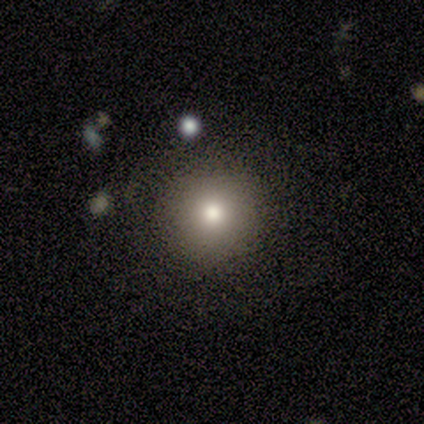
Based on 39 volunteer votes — smooth_or_featured: smooth (p=0.87) [alt: star or artifact p=0.08]
how_rounded: round (p=0.94) [alt: in between p=0.06]
merging: none (p=0.72) [alt: merger p=0.06]